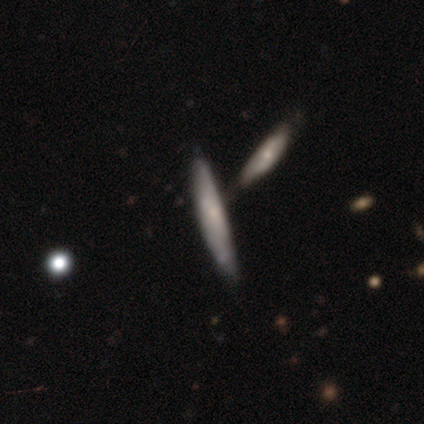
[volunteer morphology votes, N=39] Q: Smooth or featured?
A: smooth (54%); runner-up: featured or disk (46%)
Q: How rounded?
A: cigar-shaped (95%); runner-up: in between (5%)
Q: Merging?
A: none (54%); runner-up: merger (26%)